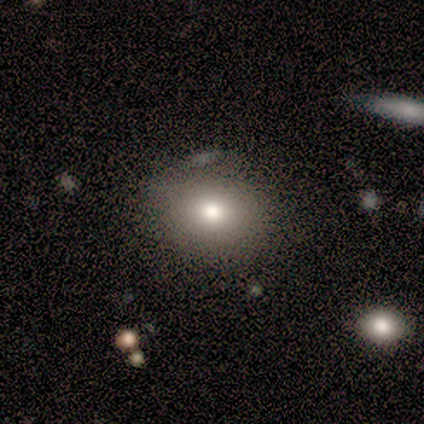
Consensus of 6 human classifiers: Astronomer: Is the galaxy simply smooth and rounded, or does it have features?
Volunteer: smooth — 50% (runner-up: star or artifact, 33%).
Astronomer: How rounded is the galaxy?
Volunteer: in between — 67%.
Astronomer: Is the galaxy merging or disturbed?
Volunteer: none — 50%.